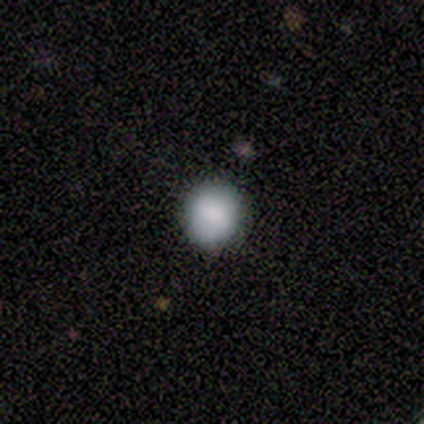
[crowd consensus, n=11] smooth_or_featured: smooth (p=1.00)
how_rounded: round (p=0.91) [alt: in between p=0.09]
merging: none (p=0.82) [alt: minor disturbance p=0.18]